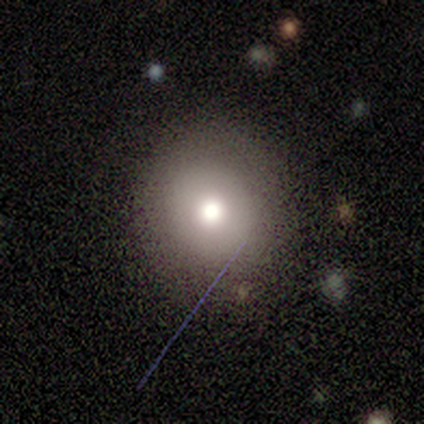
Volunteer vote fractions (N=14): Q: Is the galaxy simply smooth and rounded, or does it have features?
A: smooth — 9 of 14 (64%).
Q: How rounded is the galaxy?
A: round — 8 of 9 (89%).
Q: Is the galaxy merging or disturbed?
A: none — 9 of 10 (90%).